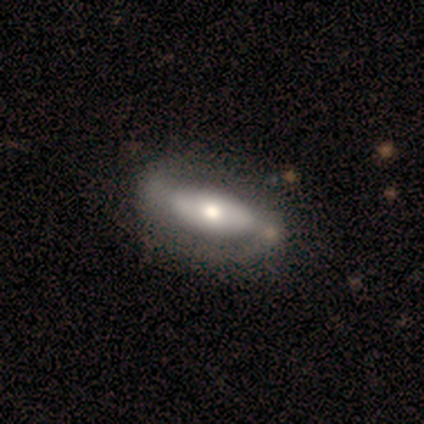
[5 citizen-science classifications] A smooth galaxy with no disk features (60%) that is in between round and cigar-shaped (67%).

Vote fractions:
- Smooth or featured? smooth: 60% / featured or disk: 40% / star or artifact: 0%
- How rounded? in between: 67% / cigar-shaped: 33% / round: 0%
- Merging? none: 80% / major disturbance: 20% / minor disturbance: 0% / merger: 0%